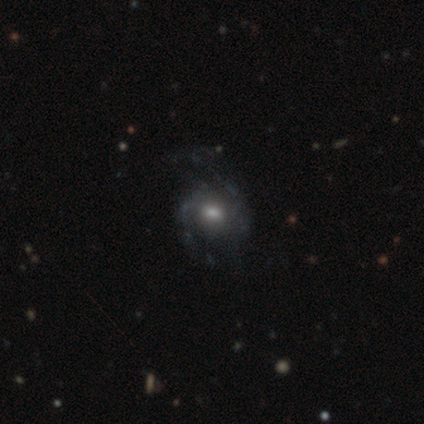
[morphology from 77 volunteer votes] type=featured or disk (68%); edge-on=no (100%); bar=no (69%); spiral arms=yes (75%); winding=medium (64%); arm count=2 (77%); bulge=moderate (71%); merging=none (27%).